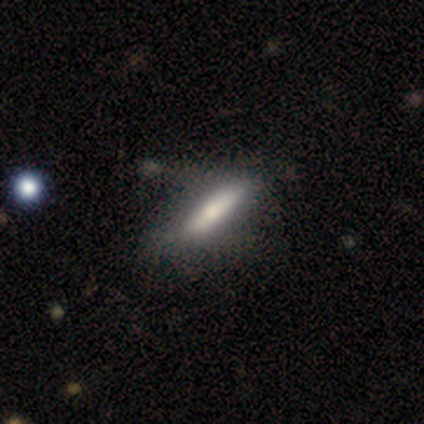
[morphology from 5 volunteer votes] Overall: smooth (60%; featured or disk 40%). How rounded: cigar-shaped (67%; in between 33%). Merging: none (80%).